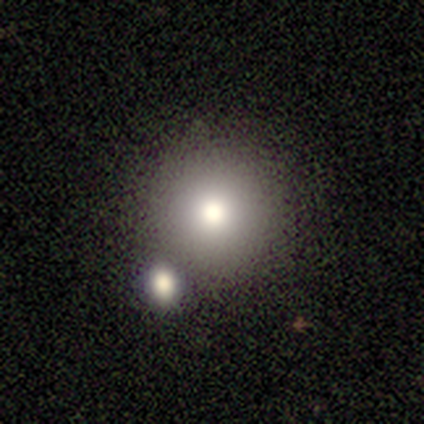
Volunteers were most divided on "smooth or featured": smooth: 60%, featured or disk: 40%, star or artifact: 0%. More confident: how rounded — round (100%); merging — none (60%).